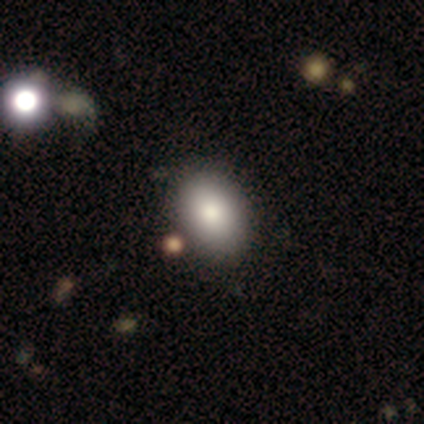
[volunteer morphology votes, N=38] Smooth or featured: smooth — 89% (featured or disk — 8%)
How rounded: in between — 88% (round — 12%)
Merging: none — 78% (minor disturbance — 5%)